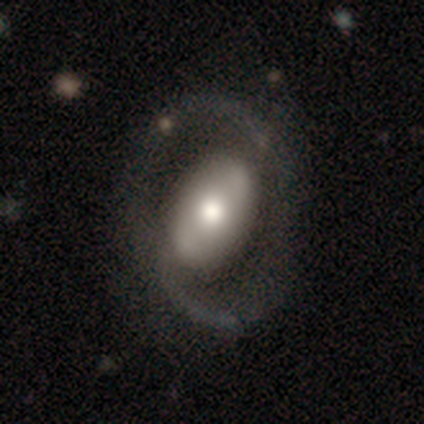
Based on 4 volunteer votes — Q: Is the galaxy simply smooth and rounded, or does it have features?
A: featured or disk — 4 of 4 (100%).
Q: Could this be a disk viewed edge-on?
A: no — 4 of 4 (100%).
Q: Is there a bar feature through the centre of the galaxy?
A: no — 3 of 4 (75%).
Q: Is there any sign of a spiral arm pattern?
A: yes — 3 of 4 (75%).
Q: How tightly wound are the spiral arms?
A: medium — 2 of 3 (67%).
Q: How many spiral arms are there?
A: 2 — 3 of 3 (100%).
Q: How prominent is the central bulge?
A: moderate — 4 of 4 (100%).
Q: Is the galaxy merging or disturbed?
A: none — 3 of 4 (75%).